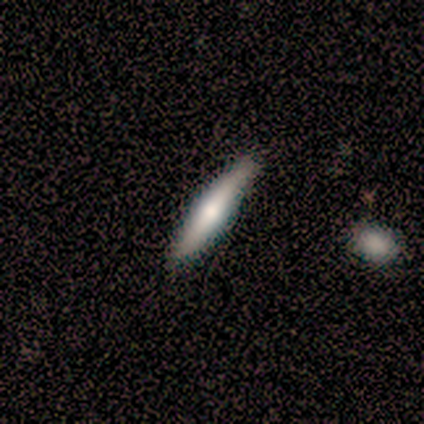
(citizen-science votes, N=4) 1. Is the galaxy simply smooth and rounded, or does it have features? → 75% smooth, 25% featured or disk, 0% star or artifact.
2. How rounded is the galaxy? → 100% cigar-shaped, 0% round, 0% in between.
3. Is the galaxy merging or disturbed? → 100% none, 0% minor disturbance, 0% major disturbance, 0% merger.